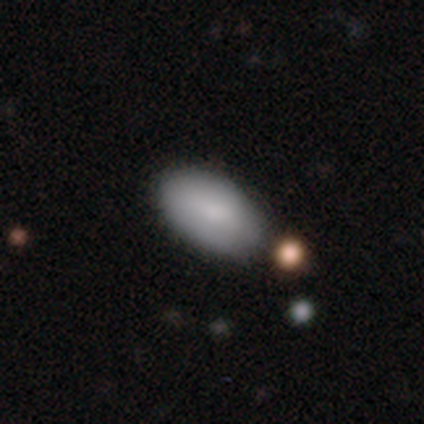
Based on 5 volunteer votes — Q: Smooth or featured?
A: smooth (100%)
Q: How rounded?
A: in between (100%)
Q: Merging?
A: none (60%); runner-up: minor disturbance (40%)